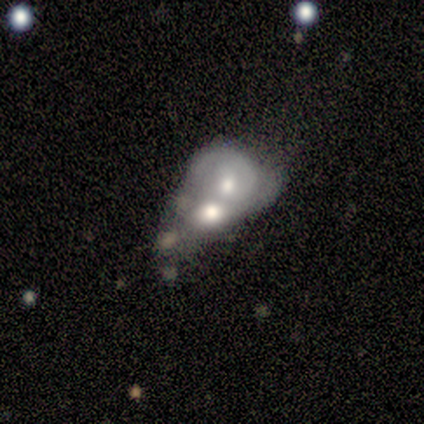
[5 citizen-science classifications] Smooth or featured? 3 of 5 (60%) said featured or disk. Edge-on disk? 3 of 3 (100%) said no. Bar? 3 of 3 (100%) said no. Spiral arms? 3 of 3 (100%) said no. Bulge size? 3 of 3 (100%) said moderate. Merging? 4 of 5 (80%) said merger.